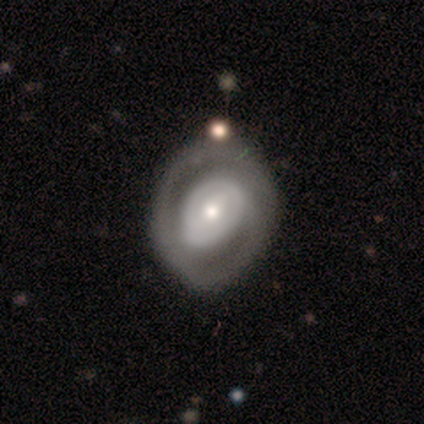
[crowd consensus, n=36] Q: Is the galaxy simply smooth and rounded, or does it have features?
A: featured or disk — 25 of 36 (69%).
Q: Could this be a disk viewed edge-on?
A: no — 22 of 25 (88%).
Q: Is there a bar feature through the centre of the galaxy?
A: no — 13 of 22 (59%).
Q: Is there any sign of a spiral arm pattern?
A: yes — 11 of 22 (50%, tied with no).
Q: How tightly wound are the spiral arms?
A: tight — 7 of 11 (64%).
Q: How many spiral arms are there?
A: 1 — 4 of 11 (36%, tied with 2).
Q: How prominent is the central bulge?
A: moderate — 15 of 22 (68%).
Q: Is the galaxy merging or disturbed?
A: none — 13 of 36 (36%).